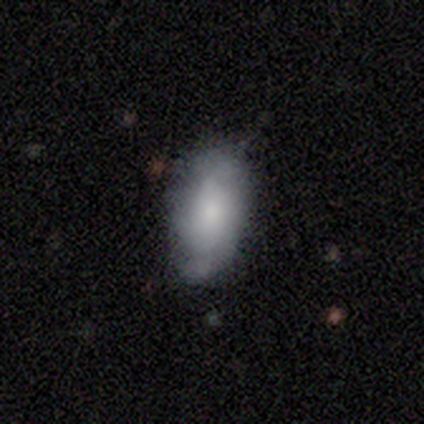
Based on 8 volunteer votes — Smooth or featured? 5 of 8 (62%) said smooth. How rounded? 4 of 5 (80%) said in between. Merging? 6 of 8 (75%) said none.